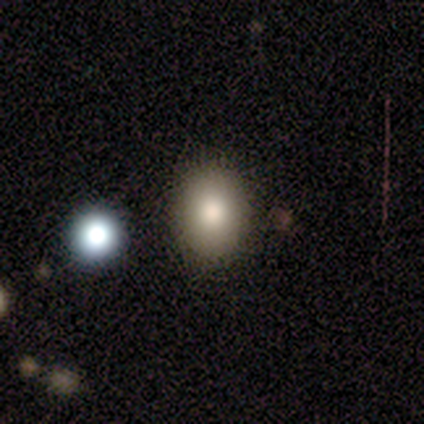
Morphology: type=smooth (80%); roundness=in between (62%); merging=none (90%).